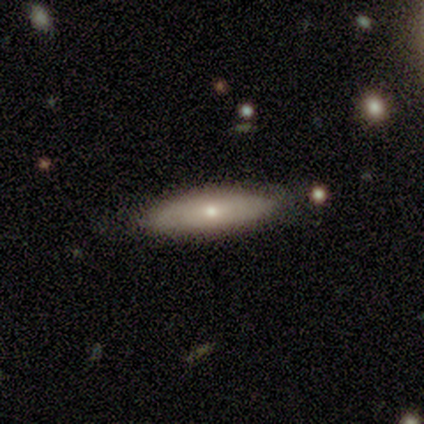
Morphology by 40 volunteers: Smooth or featured?
  - smooth: 80% *
  - featured or disk: 18%
  - star or artifact: 2%
How rounded?
  - cigar-shaped: 50% *
  - in between: 47%
  - round: 3%
Merging?
  - none: 82% *
  - minor disturbance: 13%
  - major disturbance: 3%
  - merger: 3%